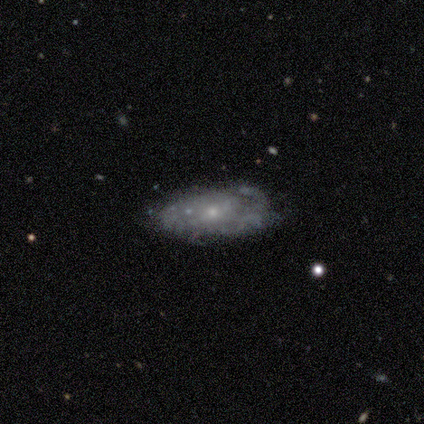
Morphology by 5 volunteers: Volunteers were most divided on "merging": none: 60%, minor disturbance: 40%, major disturbance: 0%, merger: 0%. More confident: edge-on disk — no (100%); smooth or featured — featured or disk (80%); bar — no (75%); spiral arms — yes (75%); bulge size — small (75%); spiral winding — medium (67%); spiral arm count — 2 (67%).